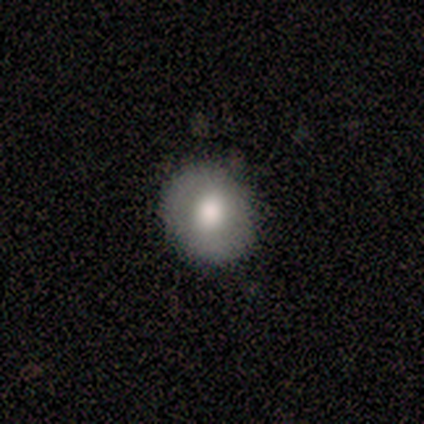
smooth-or-featured: smooth: 80% | star or artifact: 20% | featured or disk: 0%
  how-rounded: round: 100% | in between: 0% | cigar-shaped: 0%
  merging: none: 75% | minor disturbance: 25% | major disturbance: 0% | merger: 0%